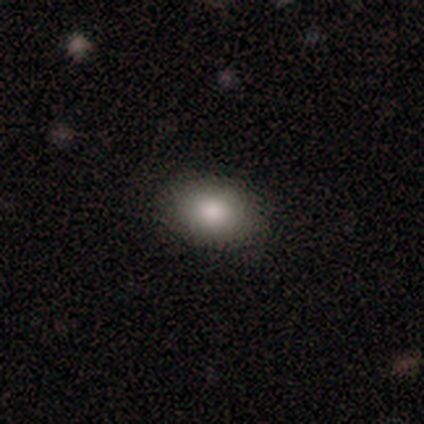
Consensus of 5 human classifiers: smooth-or-featured: smooth: 80% | featured or disk: 20% | star or artifact: 0%
  how-rounded: in between: 100% | round: 0% | cigar-shaped: 0%
  merging: none: 100% | minor disturbance: 0% | major disturbance: 0% | merger: 0%